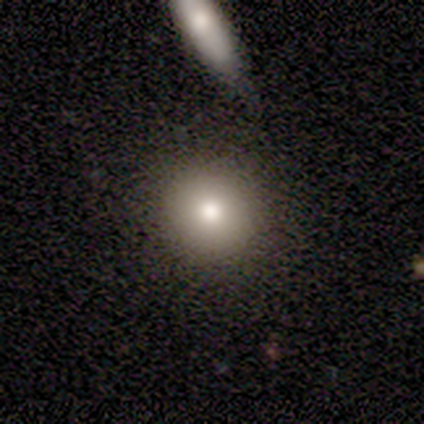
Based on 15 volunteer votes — Overall: smooth (73%). How rounded: round (91%). Merging: none (100%).